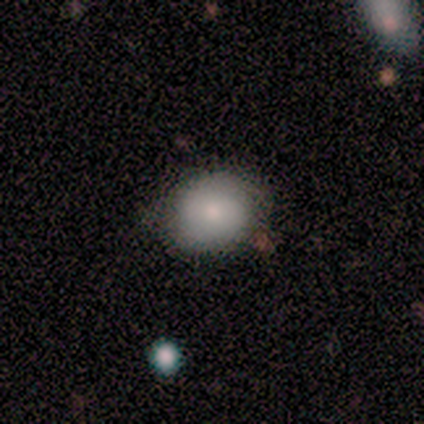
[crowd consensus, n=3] A smooth galaxy with no disk features (100%) that is in between round and cigar-shaped (67%).

Vote fractions:
- Smooth or featured? smooth: 100% / featured or disk: 0% / star or artifact: 0%
- How rounded? in between: 67% / round: 33% / cigar-shaped: 0%
- Merging? none: 67% / major disturbance: 33% / minor disturbance: 0% / merger: 0%